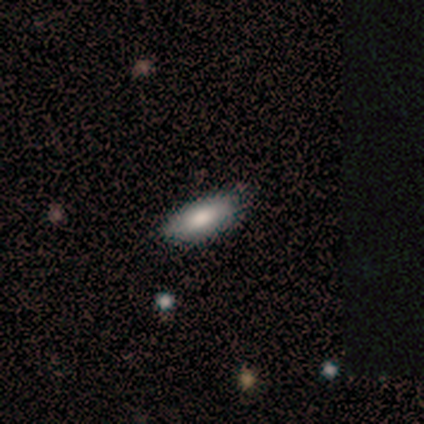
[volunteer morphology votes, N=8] A smooth galaxy with no disk features (75%) that is in between round and cigar-shaped (83%).

Vote fractions:
- Smooth or featured? smooth: 75% / featured or disk: 12% / star or artifact: 12%
- How rounded? in between: 83% / cigar-shaped: 17% / round: 0%
- Merging? none: 71% / minor disturbance: 29% / major disturbance: 0% / merger: 0%